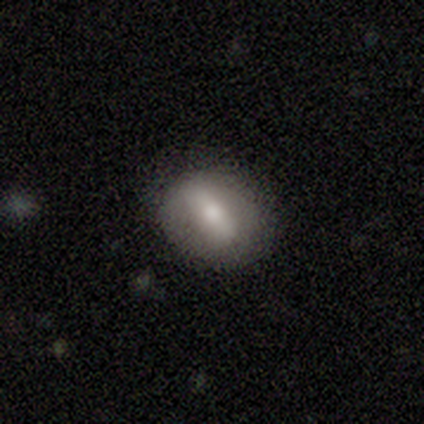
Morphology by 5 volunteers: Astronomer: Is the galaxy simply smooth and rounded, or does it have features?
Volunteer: smooth — 60%.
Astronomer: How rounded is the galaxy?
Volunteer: in between — 100%.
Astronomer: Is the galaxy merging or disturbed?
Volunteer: none — 100%.